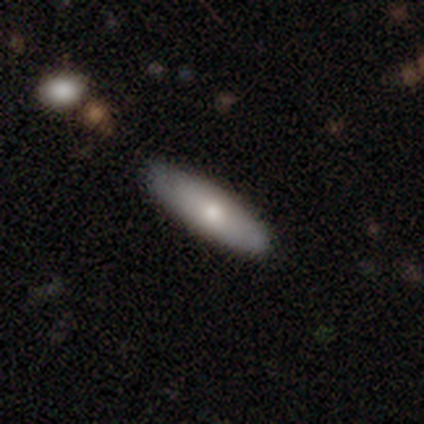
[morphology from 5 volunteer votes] Q: Smooth or featured?
A: smooth (60%); runner-up: featured or disk (40%)
Q: How rounded?
A: in between (67%); runner-up: cigar-shaped (33%)
Q: Merging?
A: none (60%); runner-up: major disturbance (20%)